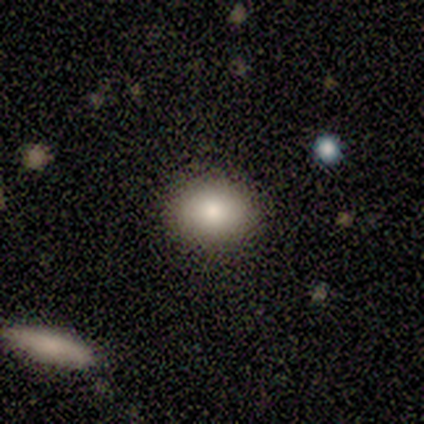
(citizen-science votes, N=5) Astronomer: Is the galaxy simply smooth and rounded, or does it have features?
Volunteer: smooth — 100%.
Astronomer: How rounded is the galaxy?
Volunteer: in between — 60% (runner-up: round, 40%).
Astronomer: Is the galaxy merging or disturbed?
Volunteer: none — 100%.